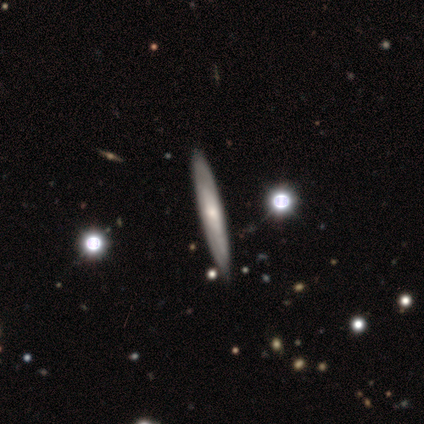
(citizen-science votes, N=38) Overall: featured or disk (55%; smooth 37%). Edge-on disk: yes (95%). Edge-on bulge: none (50%, tied with rounded). Merging: none (97%).